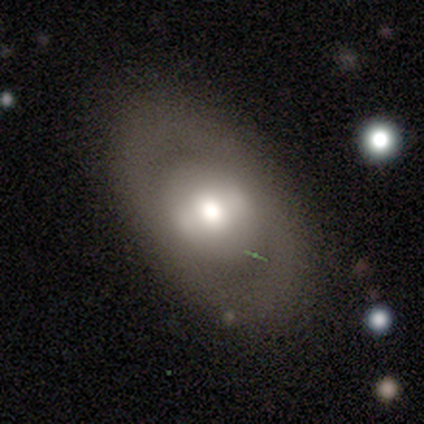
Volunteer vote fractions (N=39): A smooth galaxy with no disk features (51%) that is in between round and cigar-shaped (85%).

Vote fractions:
- Smooth or featured? smooth: 51% / featured or disk: 41% / star or artifact: 8%
- How rounded? in between: 85% / round: 15% / cigar-shaped: 0%
- Merging? none: 78% / minor disturbance: 14% / major disturbance: 8% / merger: 0%